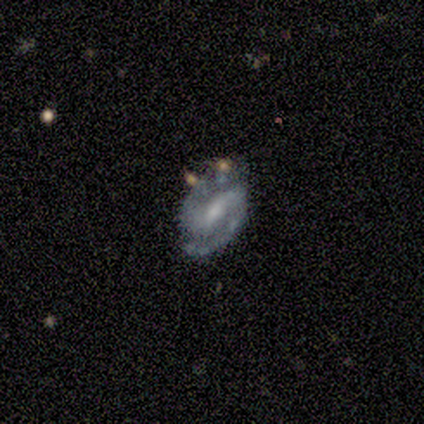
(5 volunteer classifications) Volunteers were most divided on "bar" (2-way tie): strong: 50%, weak: 50%, no: 0%; "spiral winding" (2-way tie): tight: 50%, medium: 50%, loose: 0%. More confident: smooth or featured — featured or disk (100%); spiral arms — yes (100%); spiral arm count — 2 (100%); edge-on disk — no (80%); merging — none (60%); bulge size — small (50%).